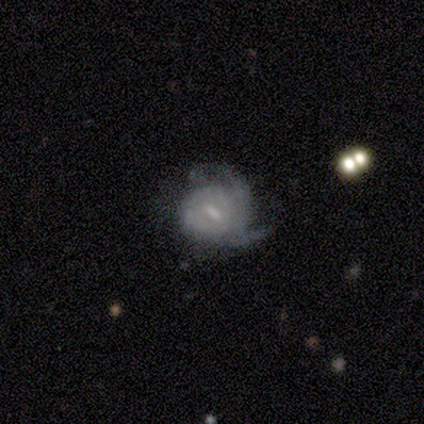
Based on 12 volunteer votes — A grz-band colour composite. It shows a featured or disk galaxy (83%) with a weak bar (50%), tight (50%) spiral arms (80%) and a small central bulge (60%). Merging: none (42%).